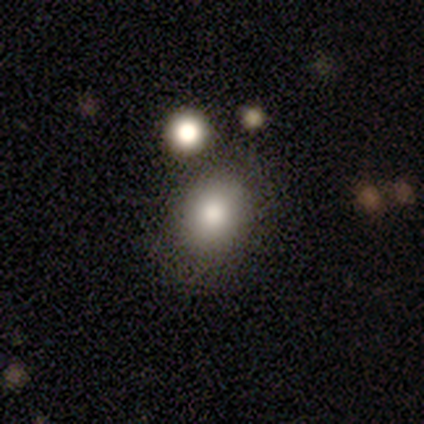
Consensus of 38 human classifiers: Smooth or featured? 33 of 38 (87%) said smooth. How rounded? 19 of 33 (58%) said in between. Merging? 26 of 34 (76%) said none.